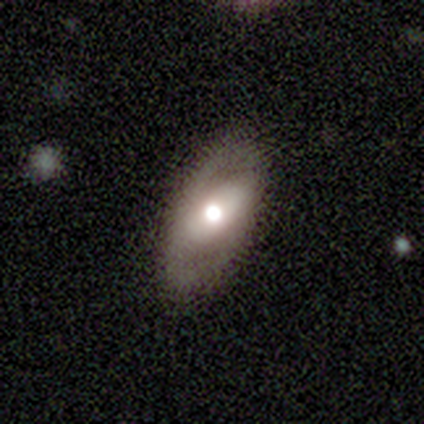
This appears to be a featured or disk galaxy (100%) with a strong bar (83%), no spiral arms (83%) and a large central bulge (67%). Merging: none (83%).